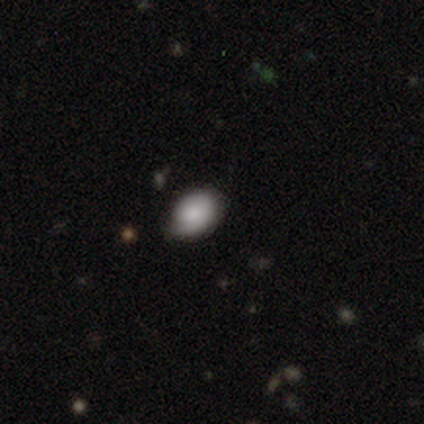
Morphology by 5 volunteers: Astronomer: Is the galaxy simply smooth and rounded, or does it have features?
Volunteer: smooth — 60% (runner-up: featured or disk, 40%).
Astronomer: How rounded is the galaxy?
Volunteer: in between — 100%.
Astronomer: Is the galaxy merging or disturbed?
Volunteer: none — 60% (runner-up: minor disturbance, 40%).